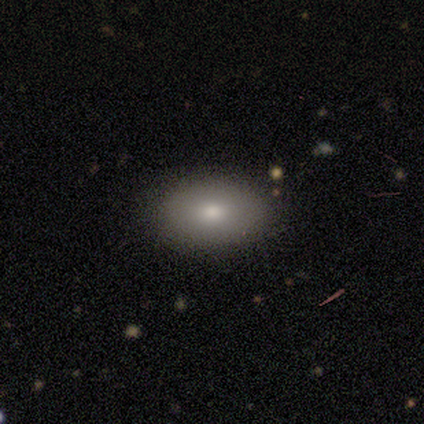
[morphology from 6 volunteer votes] Smooth or featured: smooth — 67% (featured or disk — 17%)
How rounded: in between — 100%
Merging: none — 100%